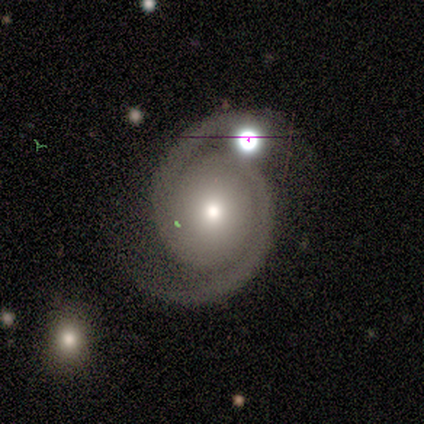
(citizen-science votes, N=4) Q: Smooth or featured?
A: featured or disk (75%); runner-up: star or artifact (25%)
Q: Edge-on disk?
A: no (100%)
Q: Bar?
A: no (67%); runner-up: weak (33%)
Q: Spiral arms?
A: yes (100%)
Q: Spiral winding?
A: tight (100%)
Q: Spiral arm count?
A: 2 (100%)
Q: Bulge size?
A: small (67%); runner-up: moderate (33%)
Q: Merging?
A: none (67%); runner-up: minor disturbance (33%)